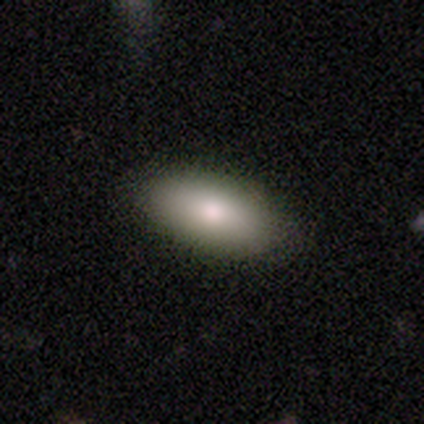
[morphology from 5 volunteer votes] This appears to be a smooth galaxy with no disk features (100%) that is in between round and cigar-shaped (100%). Merging: none (100%).